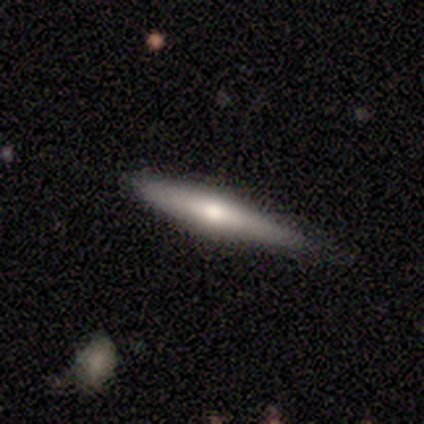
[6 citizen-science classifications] Q: Smooth or featured?
A: featured or disk (83%); runner-up: smooth (17%)
Q: Edge-on disk?
A: yes (80%); runner-up: no (20%)
Q: Edge-on bulge?
A: rounded (100%)
Q: Merging?
A: none (50%); runner-up: minor disturbance (33%)